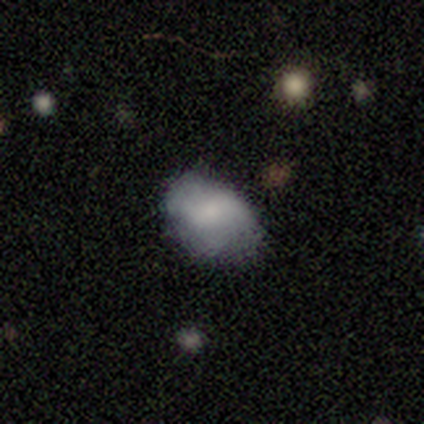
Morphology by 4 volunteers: Overall: smooth (75%). How rounded: round (67%; in between 33%). Merging: none (75%).